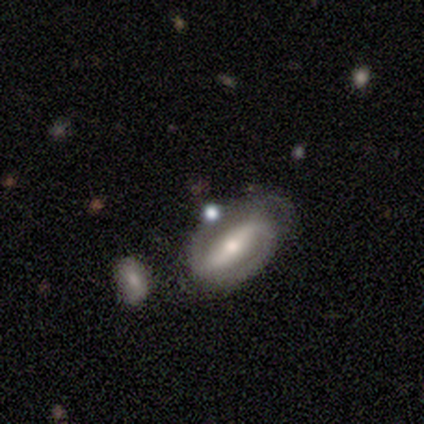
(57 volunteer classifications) Volunteers were most divided on "spiral winding": tight: 47%, medium: 44%, loose: 9%. More confident: edge-on disk — no (93%); spiral arm count — 2 (88%); spiral arms — yes (87%); bar — strong (85%); smooth or featured — featured or disk (74%); bulge size — moderate (67%); merging — none (62%).